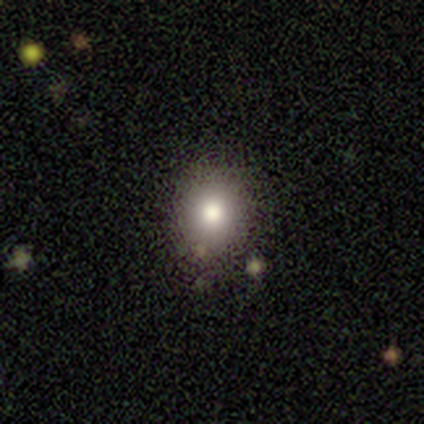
Smooth or featured: smooth — 75% (star or artifact — 25%)
How rounded: round — 67% (in between — 33%)
Merging: none — 100%